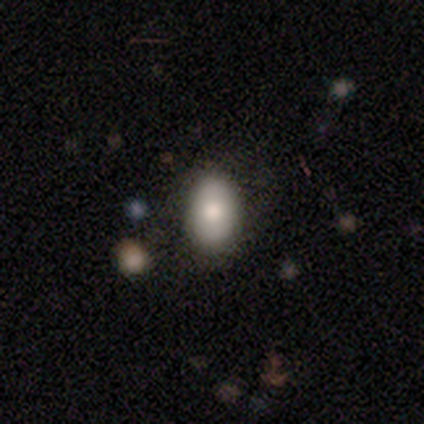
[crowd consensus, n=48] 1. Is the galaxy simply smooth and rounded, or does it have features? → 81% smooth, 12% star or artifact, 6% featured or disk.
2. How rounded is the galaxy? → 85% in between, 15% round, 0% cigar-shaped.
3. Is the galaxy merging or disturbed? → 79% none, 17% minor disturbance, 5% major disturbance, 0% merger.